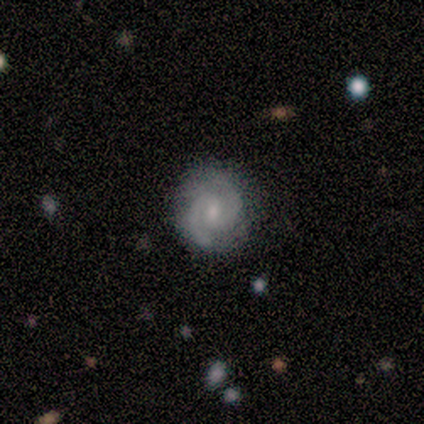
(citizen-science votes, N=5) smooth-or-featured: featured or disk: 100% | smooth: 0% | star or artifact: 0%
  disk-edge-on: no: 100% | yes: 0%
    bar: weak: 60% | strong: 20% | no: 20%
    has-spiral-arms: yes: 100% | no: 0%
      spiral-winding: tight: 60% | medium: 40% | loose: 0%
      spiral-arm-count: 2: 100% | 1: 0% | 3: 0% | 4: 0% | more than 4: 0% | can't tell: 0%
    bulge-size: moderate: 40% (tied) | small: 40% (tied) | none: 20% | dominant: 0% | large: 0%
  merging: none: 100% | minor disturbance: 0% | major disturbance: 0% | merger: 0%